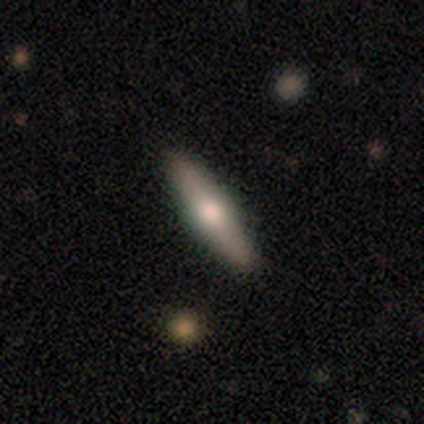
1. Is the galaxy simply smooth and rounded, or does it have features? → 75% smooth, 25% featured or disk, 0% star or artifact.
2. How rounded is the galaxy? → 100% cigar-shaped, 0% round, 0% in between.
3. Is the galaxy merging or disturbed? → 100% none, 0% minor disturbance, 0% major disturbance, 0% merger.